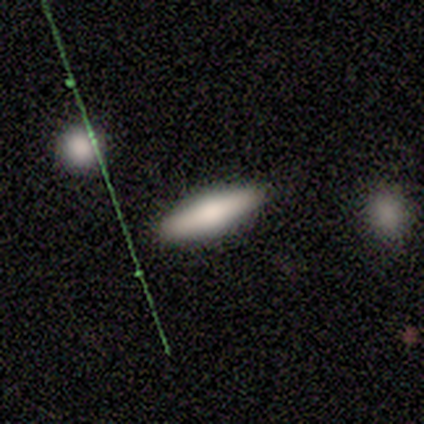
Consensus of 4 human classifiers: Smooth or featured: smooth — 100%
How rounded: cigar-shaped — 75% (in between — 25%)
Merging: none — 100%